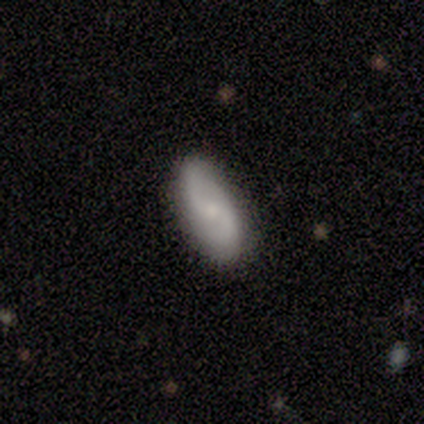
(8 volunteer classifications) Smooth or featured? featured or disk (88%)
Edge-on disk? no (86%)
Bar? no (67%)
Spiral arms? yes (83%)
Spiral winding? tight (40%, tied with medium)
Spiral arm count? 2 (100%)
Bulge size? small (100%)
Merging? none (88%)